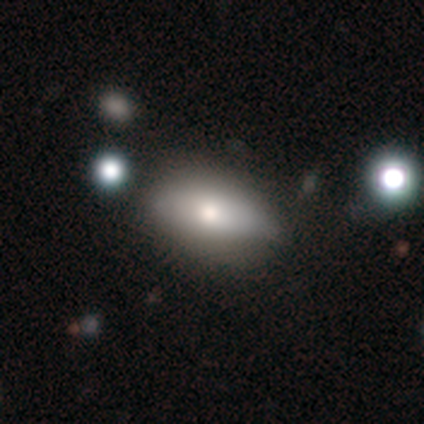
smooth_or_featured: smooth (p=0.80) [alt: featured or disk p=0.20]
how_rounded: in between (p=1.00)
merging: none (p=0.80) [alt: minor disturbance p=0.20]